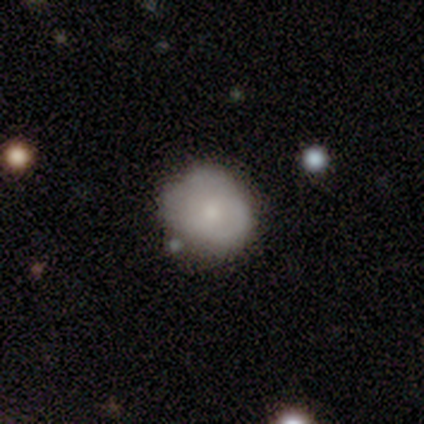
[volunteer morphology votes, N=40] Smooth or featured?
  - smooth: 68% *
  - featured or disk: 30%
  - star or artifact: 2%
How rounded?
  - round: 78% *
  - in between: 22%
  - cigar-shaped: 0%
Merging?
  - none: 44% *
  - minor disturbance: 23%
  - major disturbance: 8%
  - merger: 5%